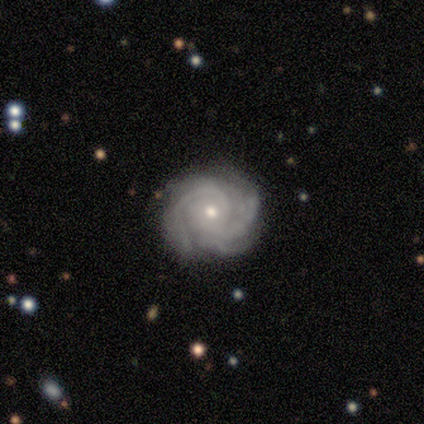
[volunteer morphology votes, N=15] Overall: featured or disk (87%). Edge-on disk: no (100%). Bar: no (77%). Spiral arms: yes (100%). Spiral arm count: 2 (46%; 3 23%). Spiral winding: tight (62%; medium 31%). Bulge size: small (62%; moderate 38%). Merging: none (80%).